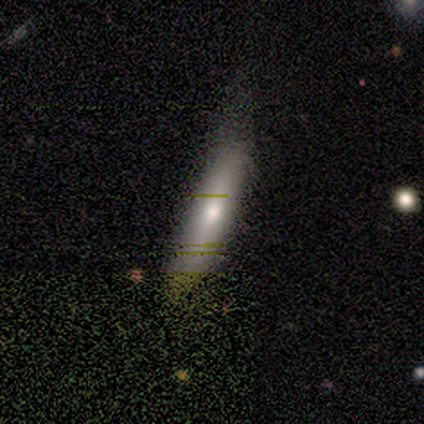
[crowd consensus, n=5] smooth_or_featured: smooth (p=0.60) [alt: featured or disk p=0.20]
how_rounded: cigar-shaped (p=0.67) [alt: in between p=0.33]
merging: none (p=0.75) [alt: major disturbance p=0.25]